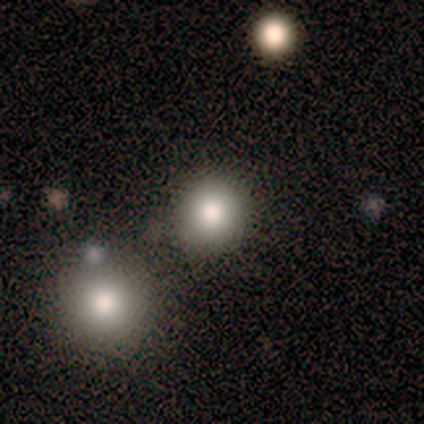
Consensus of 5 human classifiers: A smooth galaxy with no disk features (100%) that is round (80%).

Vote fractions:
- Smooth or featured? smooth: 100% / featured or disk: 0% / star or artifact: 0%
- How rounded? round: 80% / in between: 20% / cigar-shaped: 0%
- Merging? none: 80% / minor disturbance: 20% / major disturbance: 0% / merger: 0%